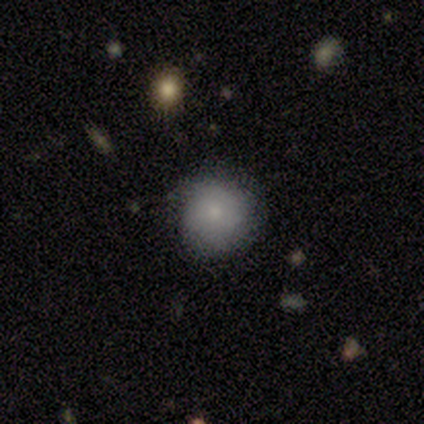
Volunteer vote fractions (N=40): smooth 82%, featured or disk 15%, star or artifact 2%. Down the decision tree: how rounded — round (94%); merging — none (74%).